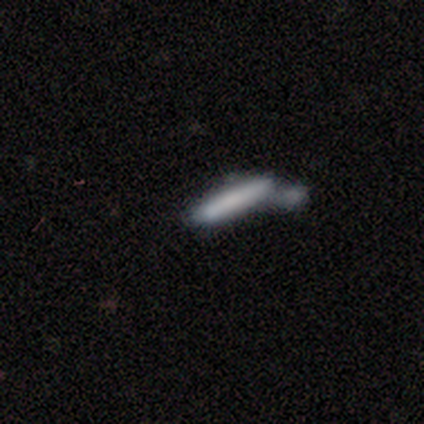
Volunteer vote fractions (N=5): Morphology: type=smooth (80%); roundness=cigar-shaped (100%); merging=merger (100%).